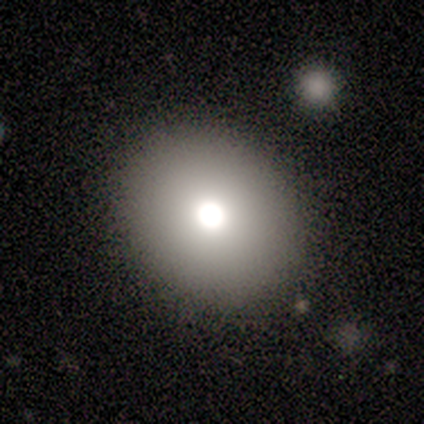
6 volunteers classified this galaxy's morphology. smooth 100%, featured or disk 0%, star or artifact 0%. Down the decision tree: how rounded — round (67%); merging — none (100%).